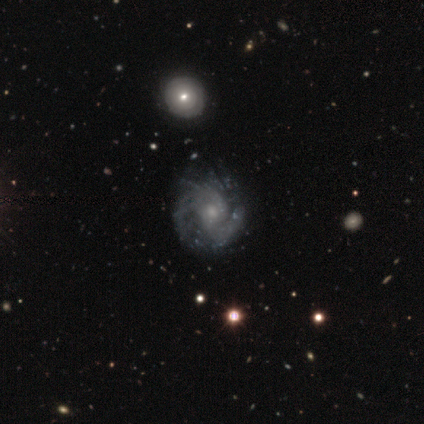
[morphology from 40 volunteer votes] Overall: featured or disk (98%). Edge-on disk: no (100%). Bar: no (77%). Spiral arms: yes (97%). Spiral arm count: can't tell (42%; 2 32%). Spiral winding: tight (42%; medium 39%). Bulge size: moderate (44%, tied with small). Merging: none (57%).